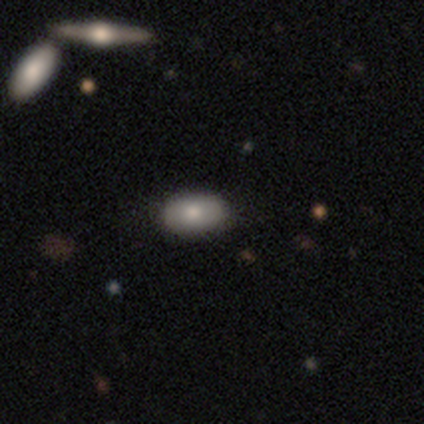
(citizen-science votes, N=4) Q: Smooth or featured?
A: smooth (50%); runner-up: featured or disk (25%)
Q: How rounded?
A: in between (100%)
Q: Merging?
A: none (100%)